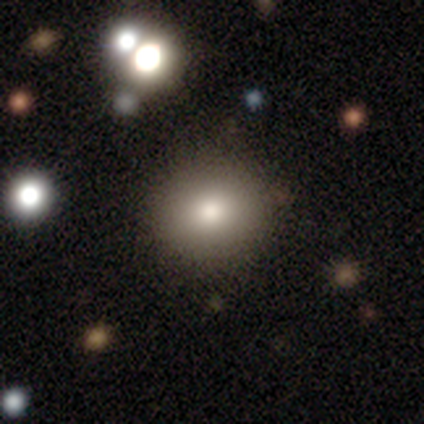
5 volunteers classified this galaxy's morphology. A smooth galaxy with no disk features (60%) that is round (100%). Merging: none (100%).